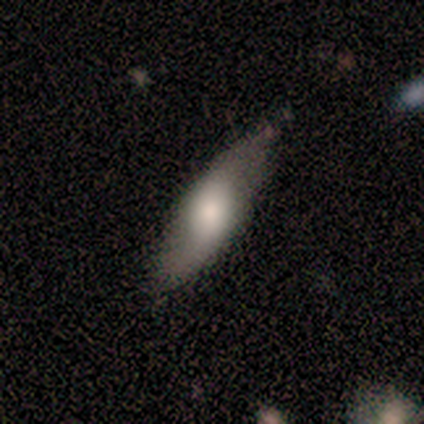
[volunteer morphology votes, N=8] Q: Smooth or featured?
A: smooth (50%); tied with: featured or disk (50%)
Q: How rounded?
A: in between (50%); tied with: cigar-shaped (50%)
Q: Merging?
A: none (88%); runner-up: minor disturbance (12%)